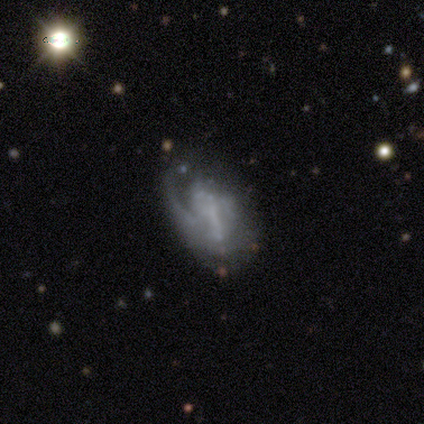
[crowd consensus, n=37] This appears to be a featured or disk galaxy (78%) with a weak bar (38%, tied with no), 1 (61%) loose (50%) spiral arms (62%) and no central bulge (69%). Merging: none (41%).